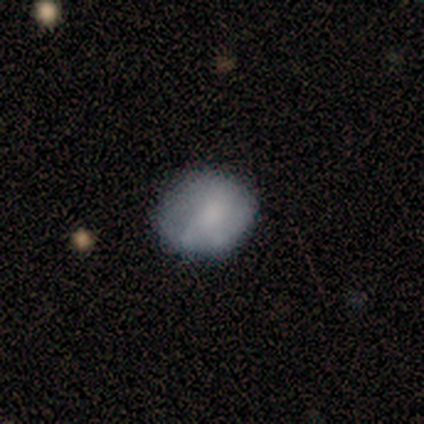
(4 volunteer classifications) A smooth galaxy with no disk features (75%) that is round (100%). Merging: none (75%).